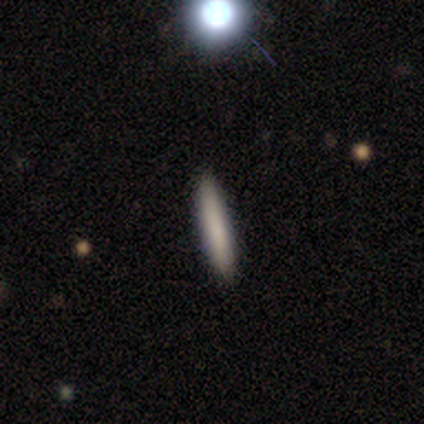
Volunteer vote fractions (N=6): Morphology: type=smooth (83%); roundness=cigar-shaped (100%); merging=none (100%).